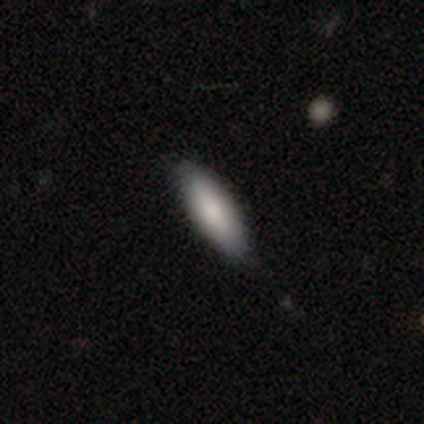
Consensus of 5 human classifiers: Smooth or featured? smooth (80%)
How rounded? cigar-shaped (75%)
Merging? none (75%)